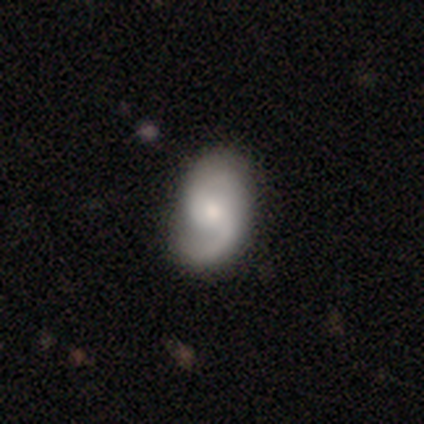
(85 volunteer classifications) A featured or disk galaxy (81%) with no bar (57%), 2 (86%) medium (45%) spiral arms (99%) and a small central bulge (51%).

Vote fractions:
- Smooth or featured? featured or disk: 81% / smooth: 13% / star or artifact: 6%
- Edge-on disk? no: 97% / yes: 3%
- Bar? no: 57% / weak: 34% / strong: 9%
- Spiral arms? yes: 99% / no: 1%
- Spiral winding? medium: 45% / loose: 39% / tight: 15%
- Spiral arm count? 2: 86% / 1: 9% / can't tell: 5% / 3: 0% / 4: 0% / more than 4: 0%
- Bulge size? small: 51% / moderate: 39% / large: 6% / none: 3% / dominant: 1%
- Merging? none: 78% / minor disturbance: 18% / major disturbance: 5% / merger: 0%